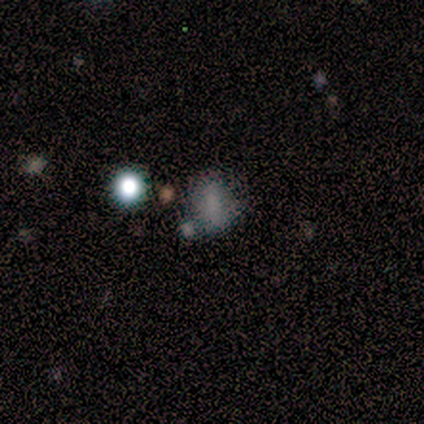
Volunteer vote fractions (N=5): This is likely a smooth galaxy (60%). How rounded: likely in between (67%). Merging: clearly none (100%).